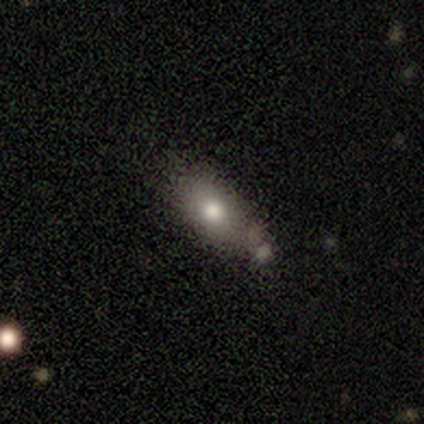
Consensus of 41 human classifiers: smooth-or-featured: smooth: 76% | featured or disk: 12% | star or artifact: 12%
  how-rounded: in between: 71% | cigar-shaped: 19% | round: 10%
  merging: none: 47% | minor disturbance: 39% | merger: 8% | major disturbance: 6%